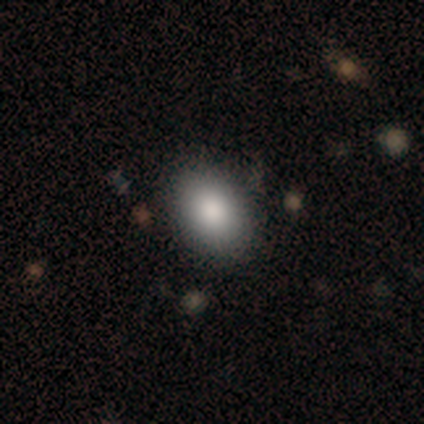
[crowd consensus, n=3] Morphology: type=smooth (100%); roundness=in between (100%); merging=none (100%).